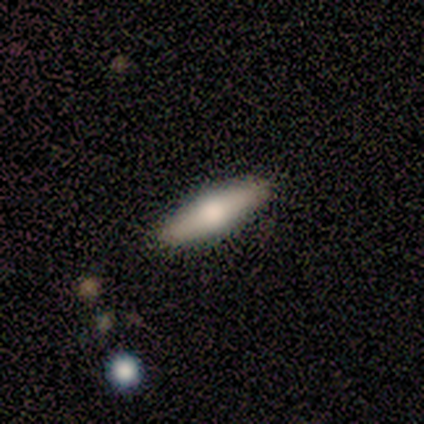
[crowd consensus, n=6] A smooth galaxy with no disk features (50%, tied with featured or disk) that is cigar-shaped (100%). Merging: none (100%).